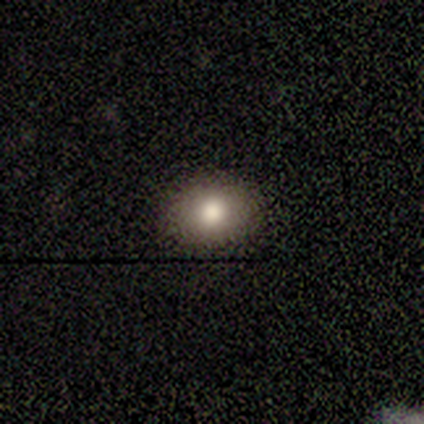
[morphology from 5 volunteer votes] This is clearly a smooth galaxy (80%). How rounded: possibly round (50%, tied with in between). Merging: clearly none (100%).